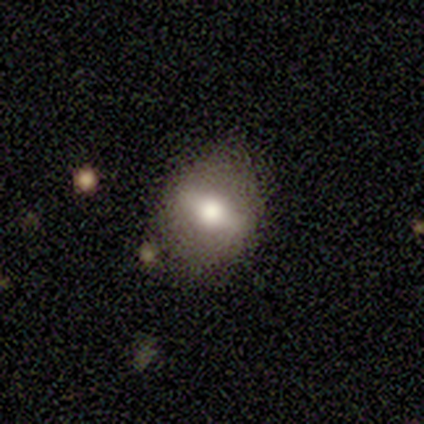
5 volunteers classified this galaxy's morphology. Volunteers were most divided on "smooth or featured": smooth: 60%, featured or disk: 40%, star or artifact: 0%. More confident: how rounded — in between (100%); merging — none (80%).